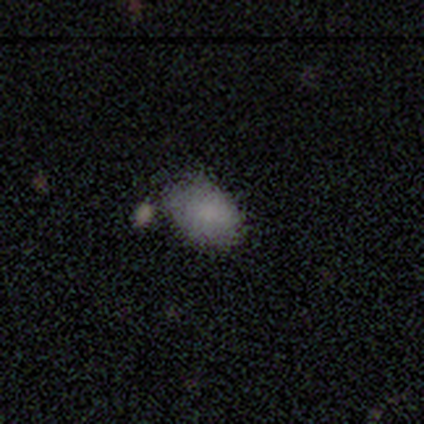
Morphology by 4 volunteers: This is clearly a smooth galaxy (100%). How rounded: clearly in between (100%). Merging: likely none (75%).